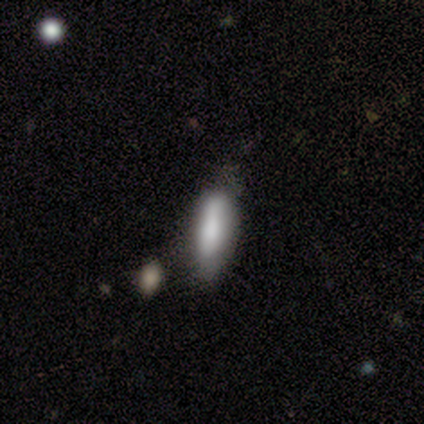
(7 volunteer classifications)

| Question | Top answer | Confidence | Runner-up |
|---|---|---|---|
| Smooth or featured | smooth | 86% | featured or disk (14%) |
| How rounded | in between | 67% | cigar-shaped (33%) |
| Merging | none | 57% | minor disturbance (29%) |